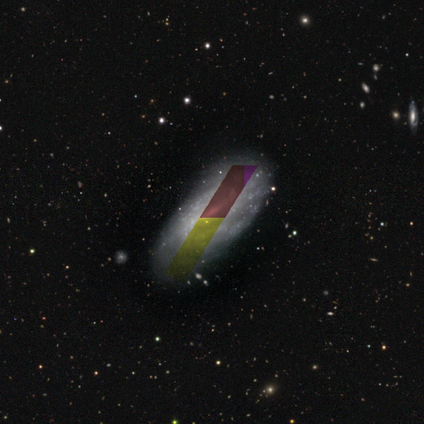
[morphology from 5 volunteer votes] Smooth or featured?
  - star or artifact: 80% *
  - smooth: 20%
  - featured or disk: 0%